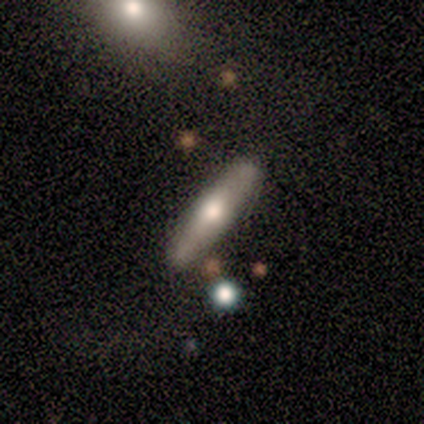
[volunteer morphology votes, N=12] Q: Smooth or featured?
A: featured or disk (58%); runner-up: smooth (42%)
Q: Edge-on disk?
A: yes (100%)
Q: Edge-on bulge?
A: rounded (86%); runner-up: boxy (14%)
Q: Merging?
A: none (92%); runner-up: minor disturbance (8%)